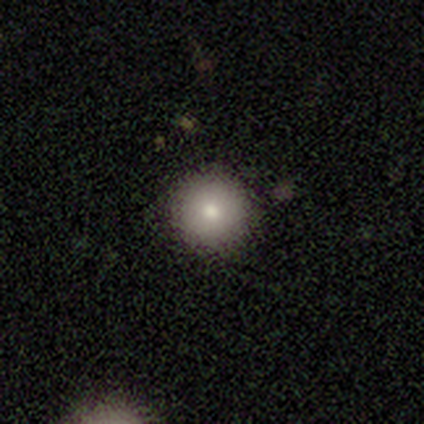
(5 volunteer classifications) smooth_or_featured: smooth (p=0.80) [alt: featured or disk p=0.20]
how_rounded: round (p=1.00)
merging: none (p=1.00)